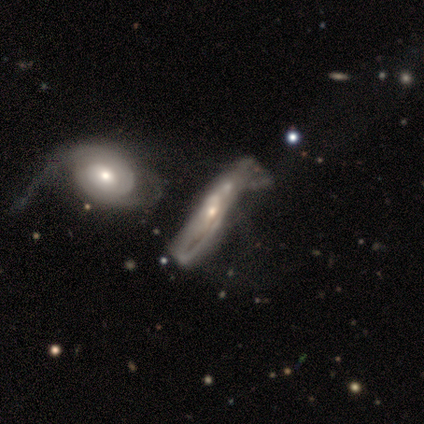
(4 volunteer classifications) Morphology: type=star or artifact (50%).